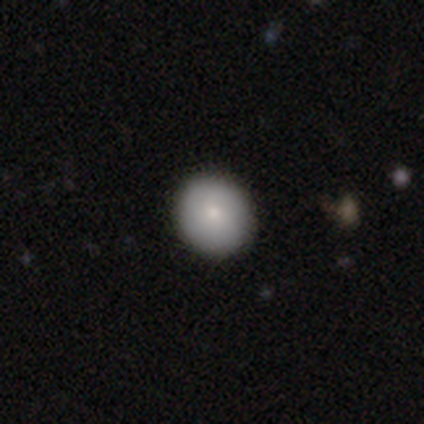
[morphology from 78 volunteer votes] smooth 87%, featured or disk 8%, star or artifact 5%. Down the decision tree: how rounded — round (81%); merging — none (46%).